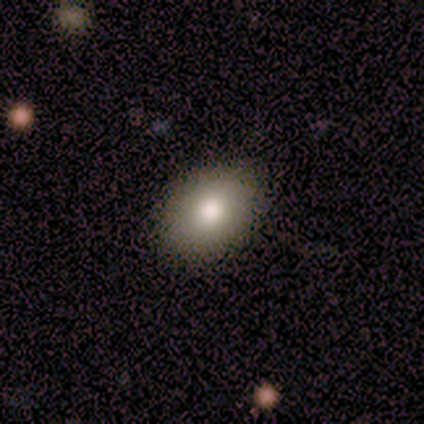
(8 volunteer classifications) This appears to be a smooth galaxy with no disk features (62%) that is in between round and cigar-shaped (80%). Merging: none (100%).